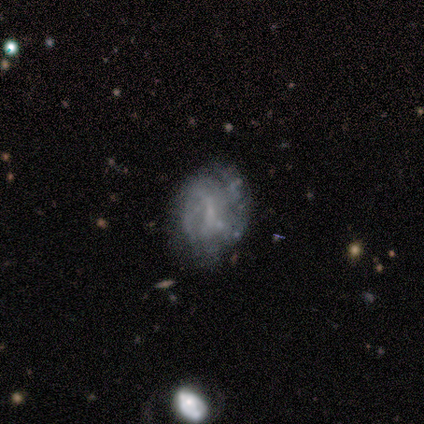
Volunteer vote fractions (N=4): Overall: featured or disk (75%). Edge-on disk: no (100%). Bar: no (67%; weak 33%). Spiral arms: yes (67%; no 33%). Spiral arm count: can't tell (100%). Spiral winding: tight (100%). Bulge size: none (100%). Merging: none (50%; minor disturbance 25%).